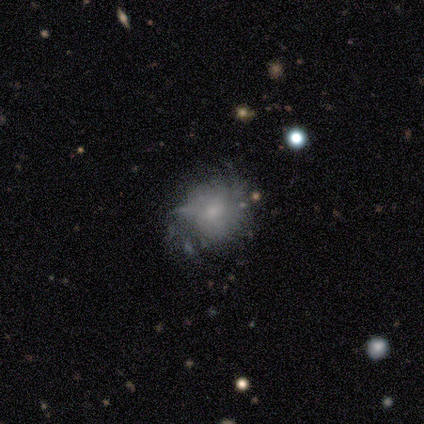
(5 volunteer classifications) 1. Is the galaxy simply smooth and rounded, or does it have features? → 60% featured or disk, 40% smooth, 0% star or artifact.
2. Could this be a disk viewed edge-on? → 100% no, 0% yes.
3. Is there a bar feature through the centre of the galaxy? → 67% weak, 33% no, 0% strong.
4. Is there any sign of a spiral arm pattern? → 100% yes, 0% no.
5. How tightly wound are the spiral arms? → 67% tight, 33% medium, 0% loose.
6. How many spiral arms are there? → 67% 3, 33% 2, 0% 1, 0% 4, 0% more than 4, 0% can't tell.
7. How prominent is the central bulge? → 100% small, 0% dominant, 0% large, 0% moderate, 0% none.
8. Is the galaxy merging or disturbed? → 80% none, 20% minor disturbance, 0% major disturbance, 0% merger.